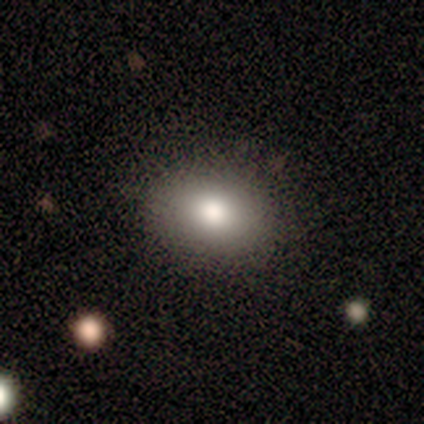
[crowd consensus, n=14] Morphology: type=smooth (79%); roundness=in between (82%); merging=none (83%).